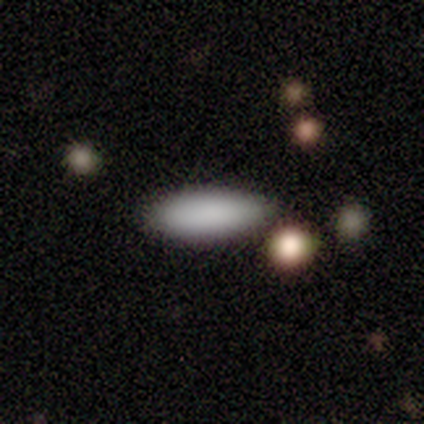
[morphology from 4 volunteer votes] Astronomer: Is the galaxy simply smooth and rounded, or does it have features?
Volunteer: smooth — 100%.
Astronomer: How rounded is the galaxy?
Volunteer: in between — 75%.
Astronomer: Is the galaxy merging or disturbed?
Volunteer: minor disturbance — 75%.